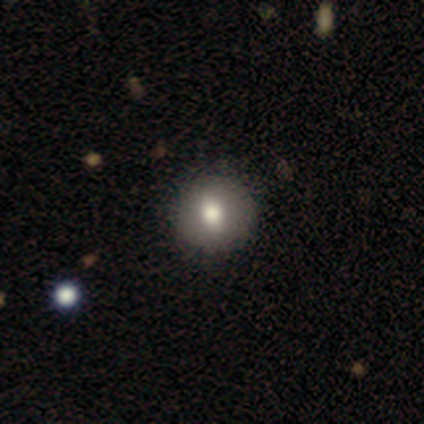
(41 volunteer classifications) This appears to be a smooth galaxy with no disk features (76%) that is round (94%). Merging: none (95%).